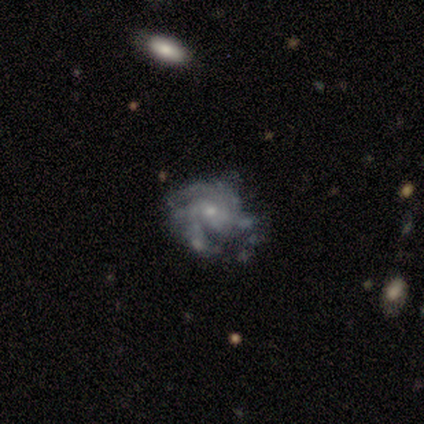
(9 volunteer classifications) featured or disk 78%, star or artifact 22%, smooth 0%. Down the decision tree: edge-on disk — no (100%); bar — no (100%); spiral arms — yes (100%); spiral arm count — 2 (43%); spiral winding — medium (86%); bulge size — small (71%); merging — none (86%).